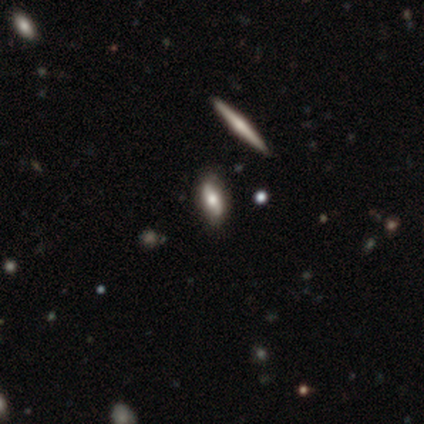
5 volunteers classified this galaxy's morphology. Smooth or featured: smooth — 40% (tied with featured or disk — 40%)
How rounded: round — 50% (tied with in between — 50%)
Merging: none — 75% (minor disturbance — 25%)